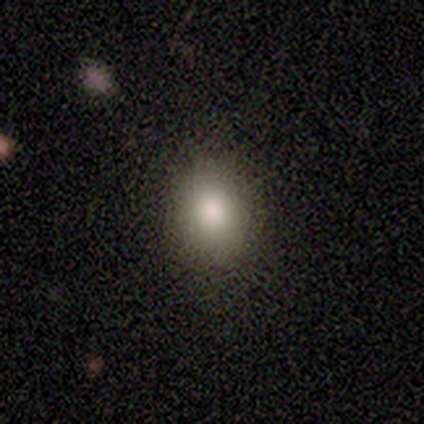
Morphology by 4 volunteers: Smooth or featured? 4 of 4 (100%) said smooth. How rounded? 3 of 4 (75%) said in between. Merging? 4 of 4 (100%) said none.